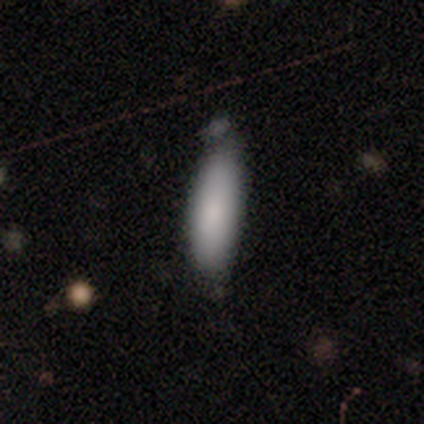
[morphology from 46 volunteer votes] Smooth or featured: smooth — 87% (star or artifact — 9%)
How rounded: in between — 55% (cigar-shaped — 45%)
Merging: none — 64% (minor disturbance — 29%)